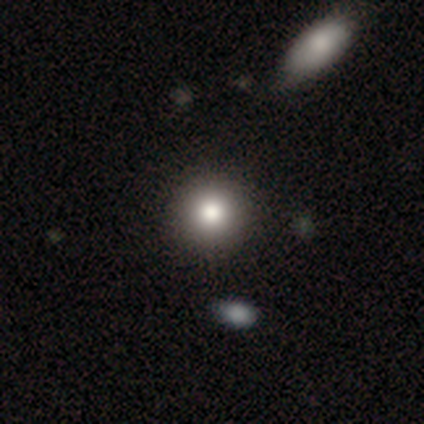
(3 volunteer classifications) This is likely a featured or disk galaxy (67%). It is clearly not viewed edge-on (100%). Bar: clearly no (100%). Spiral arm pattern: clearly no (100%). Central bulge: possibly large (50%, tied with moderate). Merging: clearly none (100%).